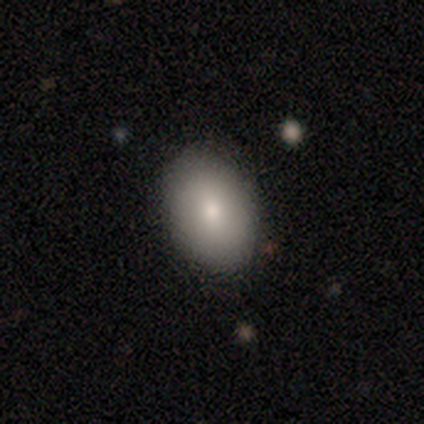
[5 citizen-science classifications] Smooth or featured: smooth — 100%
How rounded: in between — 60% (round — 40%)
Merging: none — 100%